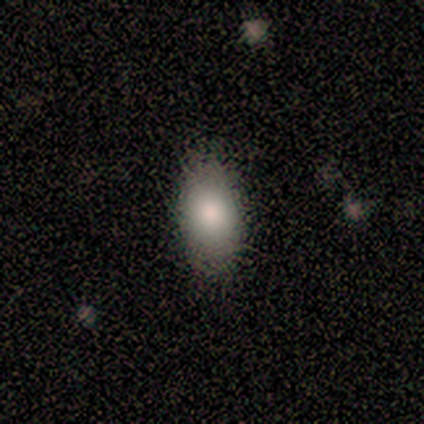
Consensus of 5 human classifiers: Volunteers were most divided on "merging": none: 80%, major disturbance: 20%, minor disturbance: 0%, merger: 0%. More confident: smooth or featured — smooth (100%); how rounded — in between (100%).